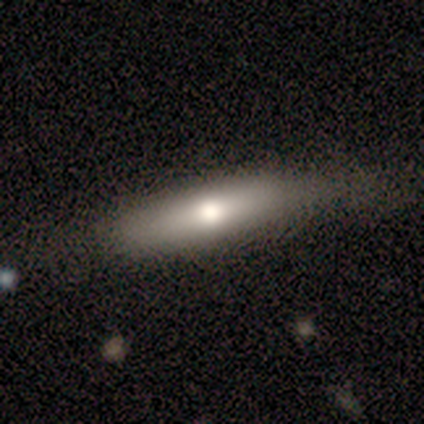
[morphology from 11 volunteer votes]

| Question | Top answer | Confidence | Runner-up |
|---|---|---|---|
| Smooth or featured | smooth | 64% | featured or disk (27%) |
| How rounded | cigar-shaped | 86% | in between (14%) |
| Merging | none | 90% | minor disturbance (10%) |